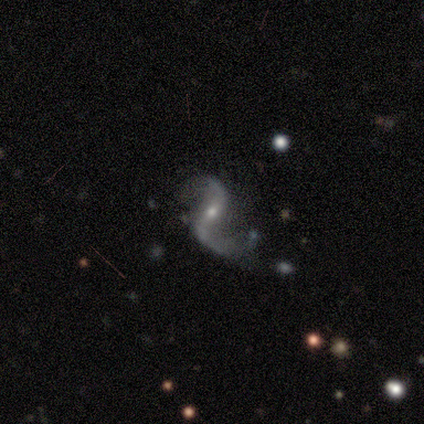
A featured or disk galaxy (97%) with a strong bar (44%), 2 (97%) loose (85%) spiral arms (94%) and a small central bulge (58%).

Vote fractions:
- Smooth or featured? featured or disk: 97% / star or artifact: 3% / smooth: 0%
- Edge-on disk? no: 95% / yes: 5%
- Bar? strong: 44% / no: 31% / weak: 25%
- Spiral arms? yes: 94% / no: 6%
- Spiral winding? loose: 85% / medium: 15% / tight: 0%
- Spiral arm count? 2: 97% / can't tell: 3% / 1: 0% / 3: 0% / 4: 0% / more than 4: 0%
- Bulge size? small: 58% / moderate: 42% / dominant: 0% / large: 0% / none: 0%
- Merging? none: 58% / minor disturbance: 21% / major disturbance: 18% / merger: 3%